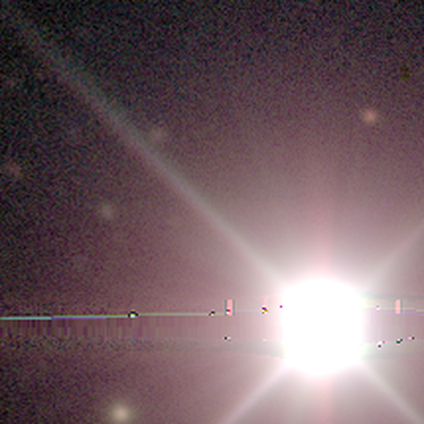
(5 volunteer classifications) Q: Smooth or featured?
A: star or artifact (100%)